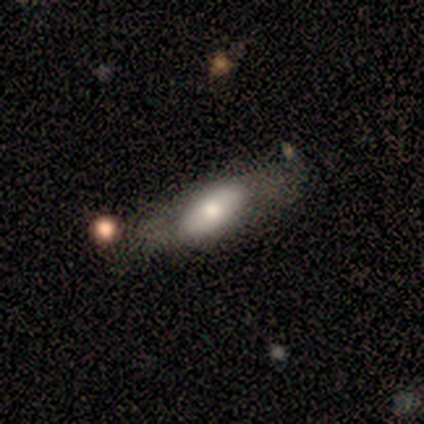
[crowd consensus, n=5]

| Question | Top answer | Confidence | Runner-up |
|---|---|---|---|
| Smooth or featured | smooth | 80% | featured or disk (20%) |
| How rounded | in between | 75% | cigar-shaped (25%) |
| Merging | none | 80% | minor disturbance (20%) |